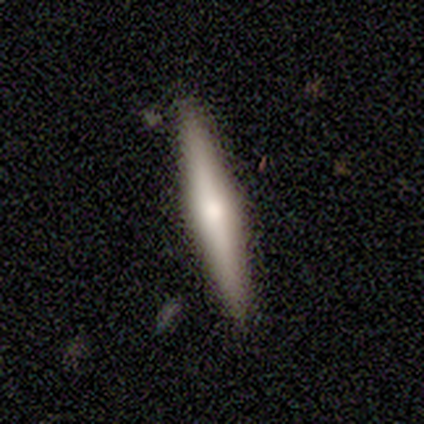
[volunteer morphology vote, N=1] Smooth or featured? 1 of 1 (100%) said featured or disk. Edge-on disk? 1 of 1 (100%) said yes. Edge-on bulge? 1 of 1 (100%) said rounded. Merging? 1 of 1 (100%) said major disturbance.